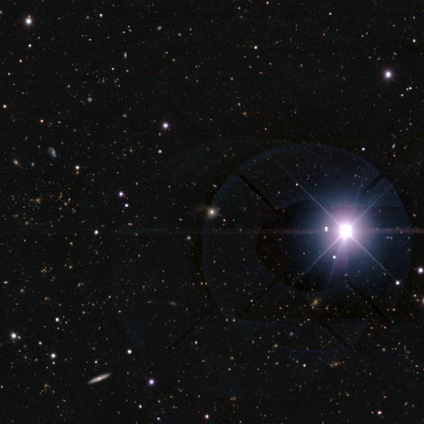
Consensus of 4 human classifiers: smooth_or_featured: star or artifact (p=1.00)